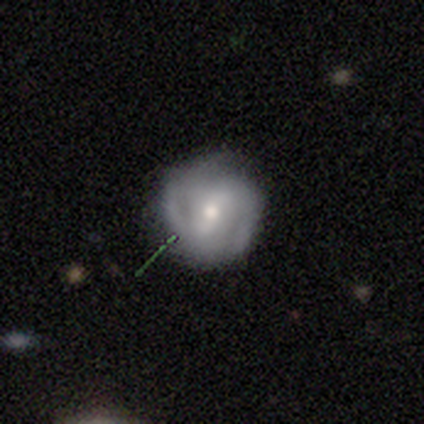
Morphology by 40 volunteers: smooth_or_featured: featured or disk (p=0.88) [alt: smooth p=0.12]
disk_edge_on: no (p=1.00)
bar: weak (p=0.57) [alt: strong p=0.29]
has_spiral_arms: yes (p=0.86) [alt: no p=0.14]
spiral_winding: medium (p=0.53) [alt: tight p=0.30]
spiral_arm_count: 2 (p=0.77) [alt: can't tell p=0.17]
bulge_size: moderate (p=0.60) [alt: small p=0.29]
merging: none (p=0.65) [alt: minor disturbance p=0.03]